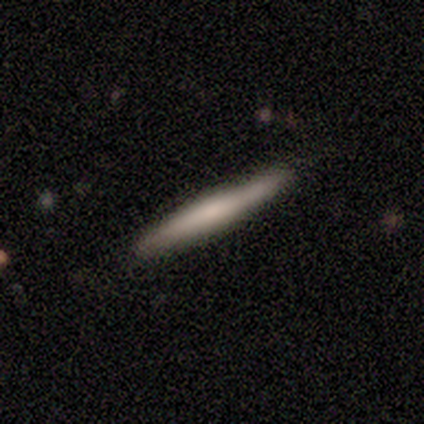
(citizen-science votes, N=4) Volunteers were most divided on "smooth or featured": smooth: 75%, featured or disk: 25%, star or artifact: 0%. More confident: how rounded — cigar-shaped (100%); merging — none (100%).